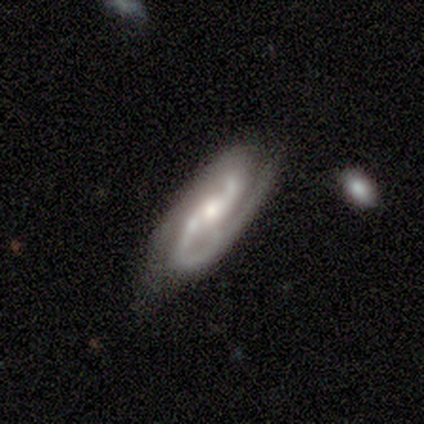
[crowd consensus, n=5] This appears to be a featured or disk galaxy (100%) with a strong bar (40%, tied with weak), 2 (100%) medium (80%) spiral arms (100%) and a moderate central bulge (80%). Merging: none (80%).